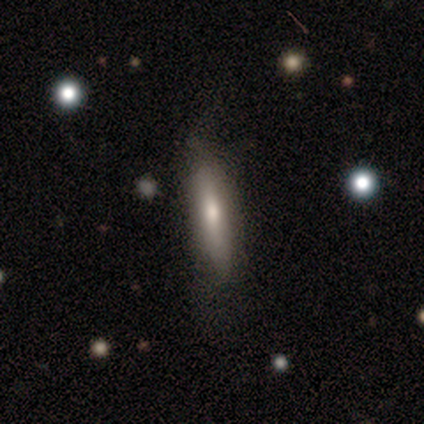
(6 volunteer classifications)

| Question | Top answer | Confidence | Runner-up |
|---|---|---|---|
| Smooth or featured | smooth | 67% | featured or disk (33%) |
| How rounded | cigar-shaped | 100% | — |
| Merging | none | 50% | tied: minor disturbance (50%) |